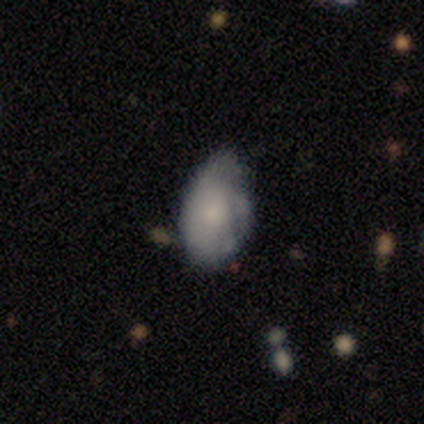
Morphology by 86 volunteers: Q: Smooth or featured?
A: smooth (58%); runner-up: featured or disk (35%)
Q: How rounded?
A: in between (88%); runner-up: round (6%)
Q: Merging?
A: minor disturbance (48%); runner-up: none (46%)